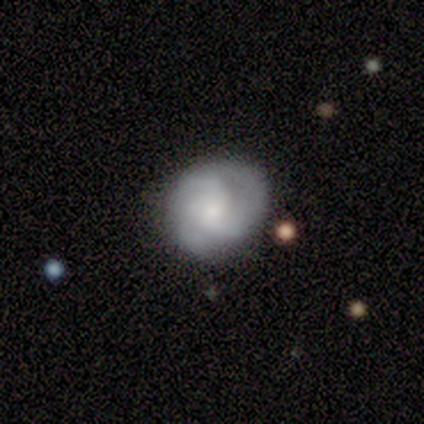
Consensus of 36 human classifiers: Morphology: type=featured or disk (67%); edge-on=no (96%); bar=no (74%); spiral arms=yes (91%); winding=tight (48%); arm count=3 (57%); bulge=small (65%); merging=none (86%).